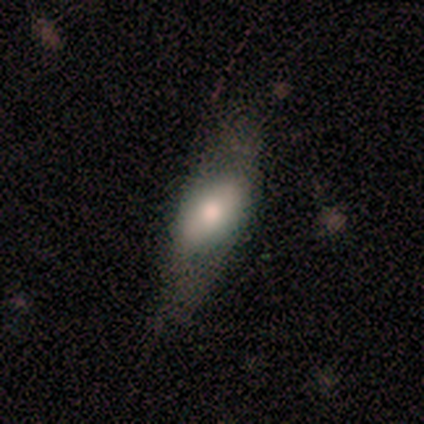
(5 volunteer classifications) A smooth galaxy with no disk features (60%) that is in between round and cigar-shaped (100%). Merging: none (80%).